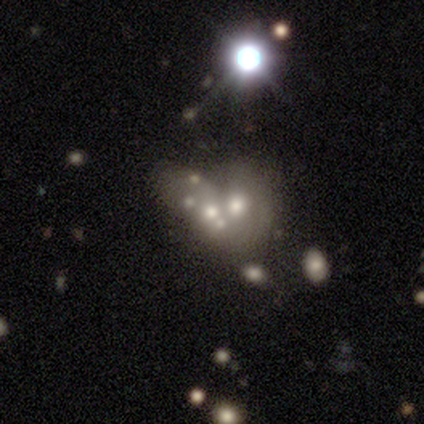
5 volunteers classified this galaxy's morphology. Overall: featured or disk (80%). Edge-on disk: no (100%). Bar: no (100%). Spiral arms: no (100%). Bulge size: small (50%; dominant 25%). Merging: merger (50%; none 25%).